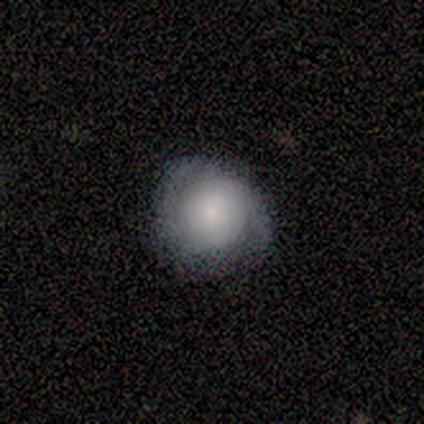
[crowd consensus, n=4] Smooth or featured: smooth — 75% (featured or disk — 25%)
How rounded: round — 100%
Merging: none — 75% (minor disturbance — 25%)